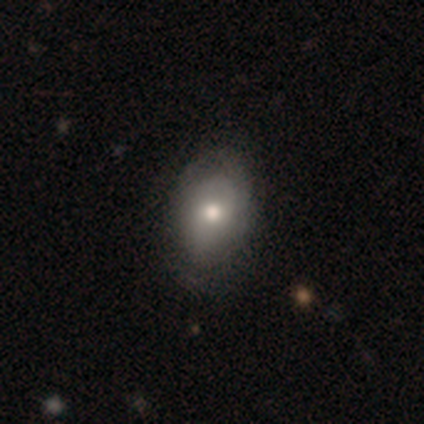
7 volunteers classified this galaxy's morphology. This appears to be a smooth galaxy with no disk features (57%) that is in between round and cigar-shaped (50%). Merging: none (86%).